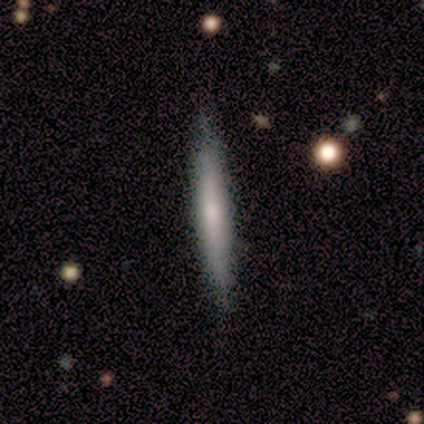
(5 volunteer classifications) smooth 60%, featured or disk 40%, star or artifact 0%. Down the decision tree: how rounded — cigar-shaped (100%); merging — none (80%).